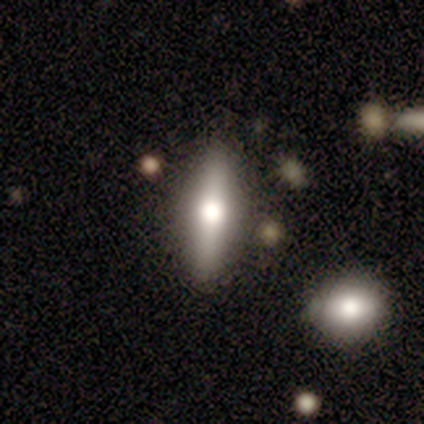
A featured or disk galaxy (61%) viewed edge-on (91%) with a rounded central bulge (100%). Merging: none (73%).